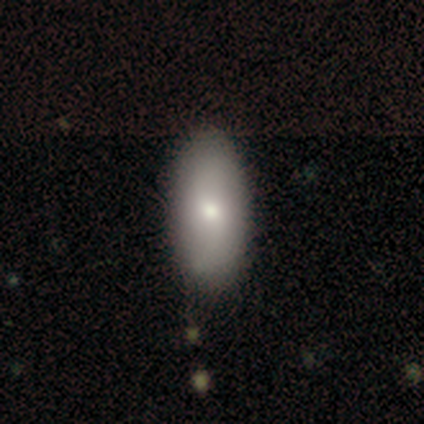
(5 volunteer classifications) smooth-or-featured: featured or disk: 60% | smooth: 20% | star or artifact: 20%
  disk-edge-on: no: 100% | yes: 0%
    bar: no: 100% | strong: 0% | weak: 0%
    has-spiral-arms: yes: 67% | no: 33%
      spiral-winding: loose: 100% | tight: 0% | medium: 0%
      spiral-arm-count: 2: 50% (tied) | can't tell: 50% (tied) | 1: 0% | 3: 0% | 4: 0% | more than 4: 0%
    bulge-size: moderate: 100% | dominant: 0% | large: 0% | small: 0% | none: 0%
  merging: none: 50% (tied) | merger: 50% (tied) | minor disturbance: 0% | major disturbance: 0%